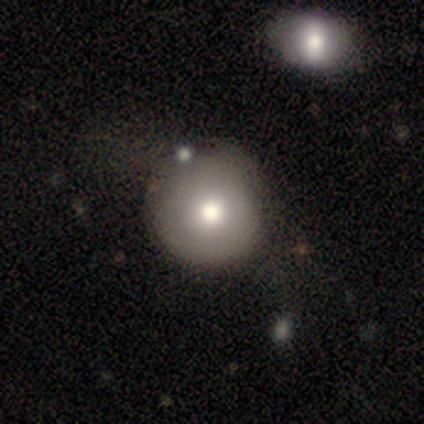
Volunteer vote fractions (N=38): Q: Smooth or featured?
A: smooth (82%); runner-up: featured or disk (13%)
Q: How rounded?
A: round (100%)
Q: Merging?
A: none (42%); runner-up: minor disturbance (25%)